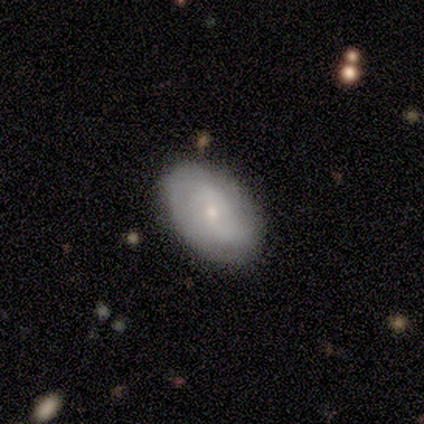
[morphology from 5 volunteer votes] Smooth or featured?
  - smooth: 60% *
  - featured or disk: 40%
  - star or artifact: 0%
How rounded?
  - in between: 67% *
  - round: 33%
  - cigar-shaped: 0%
Merging?
  - none: 100% *
  - minor disturbance: 0%
  - major disturbance: 0%
  - merger: 0%